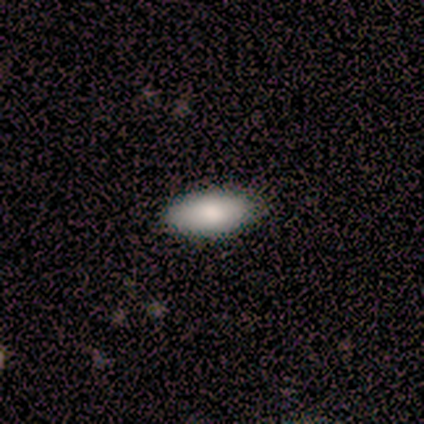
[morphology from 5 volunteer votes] smooth 40% (tied), featured or disk 40% (tied), star or artifact 20%. Down the decision tree: how rounded — in between (50%, tied with cigar-shaped); merging — none (50%, tied with minor disturbance).